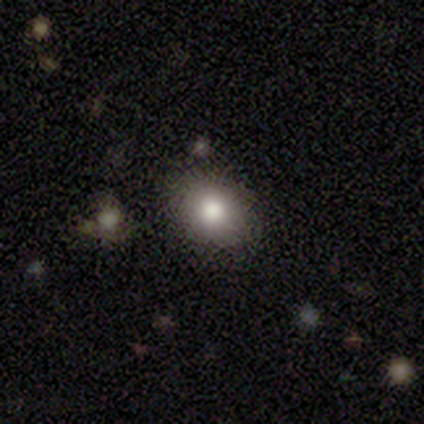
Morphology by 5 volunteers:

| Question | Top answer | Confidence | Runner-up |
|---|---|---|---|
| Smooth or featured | smooth | 100% | — |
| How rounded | round | 100% | — |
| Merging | none | 60% | minor disturbance (20%) |